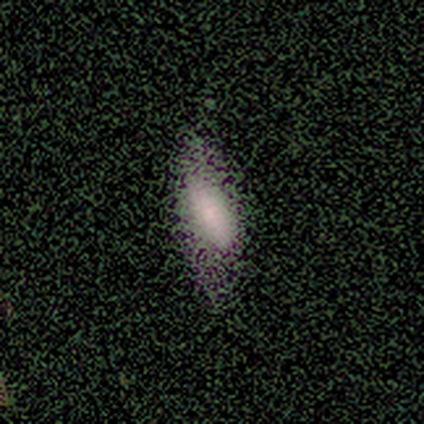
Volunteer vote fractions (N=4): This appears to be a smooth galaxy with no disk features (100%) that is in between round and cigar-shaped (100%). Merging: none (50%, tied with minor disturbance).